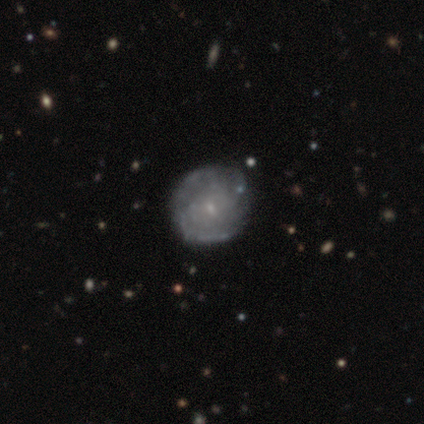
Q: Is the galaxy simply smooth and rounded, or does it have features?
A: featured or disk — 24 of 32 (75%).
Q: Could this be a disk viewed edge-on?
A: no — 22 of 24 (92%).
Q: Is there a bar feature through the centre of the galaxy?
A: no — 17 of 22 (77%).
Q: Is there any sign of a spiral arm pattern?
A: yes — 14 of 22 (64%).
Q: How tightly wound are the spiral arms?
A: tight — 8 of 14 (57%).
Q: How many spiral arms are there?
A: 2 — 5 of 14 (36%).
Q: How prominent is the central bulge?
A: small — 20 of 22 (91%).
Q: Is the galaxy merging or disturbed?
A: none — 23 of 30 (77%).